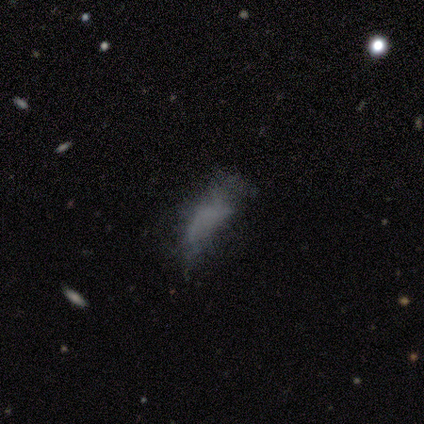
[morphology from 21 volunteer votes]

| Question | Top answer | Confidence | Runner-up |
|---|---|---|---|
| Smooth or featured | smooth | 48% | star or artifact (29%) |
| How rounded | in between | 90% | cigar-shaped (10%) |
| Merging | none | 53% | major disturbance (27%) |